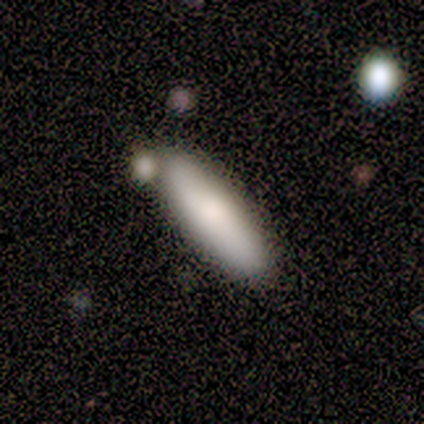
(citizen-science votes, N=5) smooth-or-featured: smooth: 60% | featured or disk: 40% | star or artifact: 0%
  how-rounded: cigar-shaped: 100% | round: 0% | in between: 0%
  merging: none: 100% | minor disturbance: 0% | major disturbance: 0% | merger: 0%